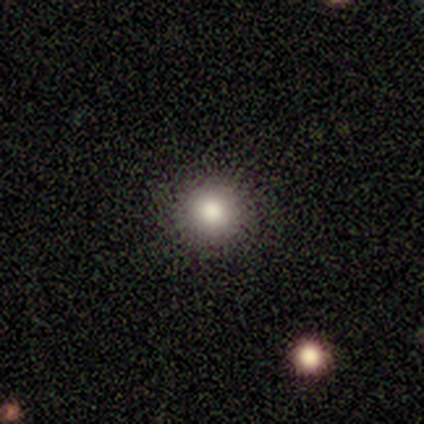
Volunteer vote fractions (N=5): A smooth galaxy with no disk features (60%) that is round (100%).

Vote fractions:
- Smooth or featured? smooth: 60% / featured or disk: 20% / star or artifact: 20%
- How rounded? round: 100% / in between: 0% / cigar-shaped: 0%
- Merging? none: 100% / minor disturbance: 0% / major disturbance: 0% / merger: 0%